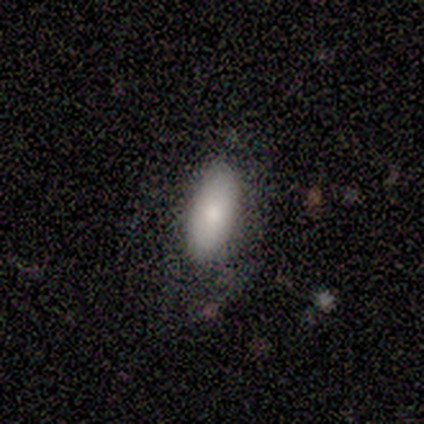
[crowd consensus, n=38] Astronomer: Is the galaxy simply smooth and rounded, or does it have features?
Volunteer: smooth — 79%.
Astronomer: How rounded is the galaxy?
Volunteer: in between — 83%.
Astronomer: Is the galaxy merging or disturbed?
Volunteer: none — 68%.